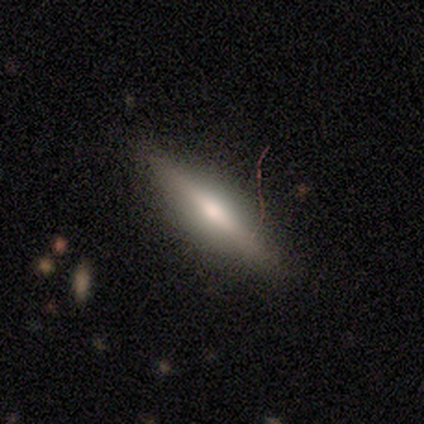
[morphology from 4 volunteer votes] Smooth or featured? 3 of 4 (75%) said featured or disk. Edge-on disk? 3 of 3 (100%) said yes. Edge-on bulge? 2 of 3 (67%) said rounded. Merging? 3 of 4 (75%) said none.